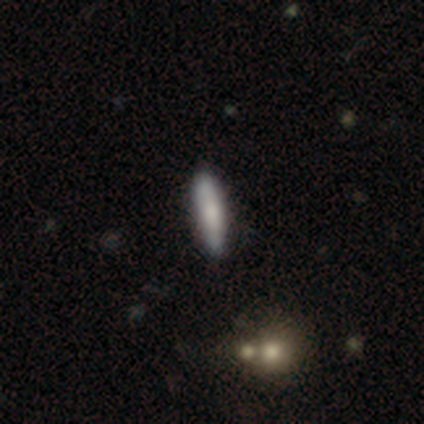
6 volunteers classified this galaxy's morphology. smooth_or_featured: smooth (p=0.67) [alt: featured or disk p=0.33]
how_rounded: cigar-shaped (p=0.75) [alt: in between p=0.25]
merging: none (p=1.00)